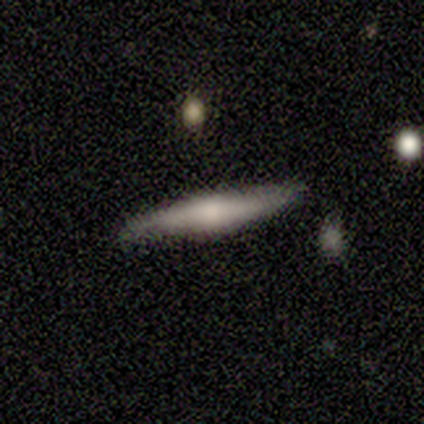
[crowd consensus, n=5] Volunteers were most divided on "smooth or featured": featured or disk: 60%, smooth: 40%, star or artifact: 0%. More confident: edge-on disk — yes (100%); edge-on bulge — rounded (67%); merging — none (60%).